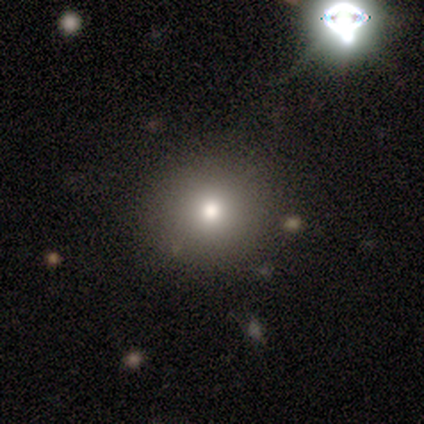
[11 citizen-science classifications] Smooth or featured? smooth (45%, tied with star or artifact)
How rounded? round (100%)
Merging? none (67%)